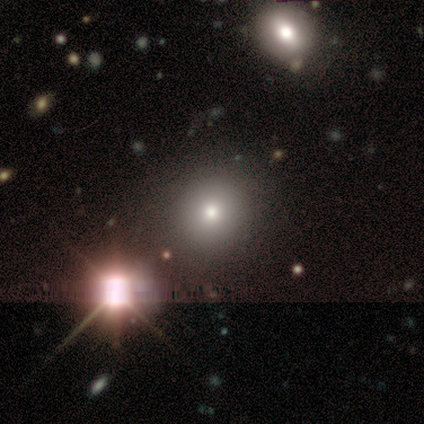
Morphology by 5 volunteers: A smooth galaxy with no disk features (60%) that is round (100%). Merging: none (100%).